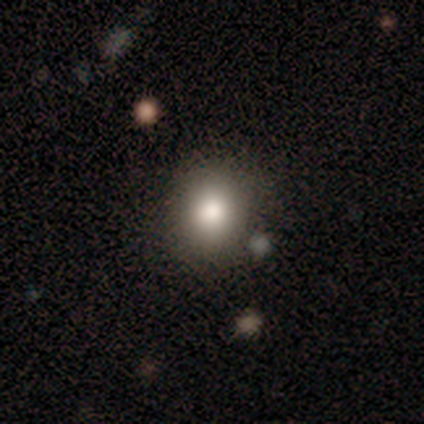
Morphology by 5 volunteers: Smooth or featured?
  - smooth: 80% *
  - featured or disk: 20%
  - star or artifact: 0%
How rounded?
  - round: 100% *
  - in between: 0%
  - cigar-shaped: 0%
Merging?
  - none: 40% * (tied)
  - minor disturbance: 40% * (tied)
  - merger: 20%
  - major disturbance: 0%